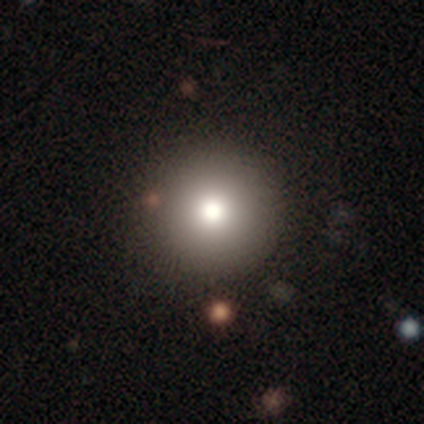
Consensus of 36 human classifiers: smooth_or_featured: smooth (p=0.72) [alt: star or artifact p=0.17]
how_rounded: round (p=0.96) [alt: in between p=0.04]
merging: none (p=0.97) [alt: merger p=0.03]